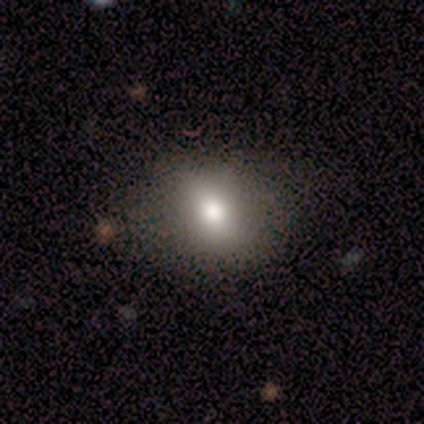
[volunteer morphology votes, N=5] smooth_or_featured: smooth (p=1.00)
how_rounded: round (p=0.60) [alt: in between p=0.40]
merging: none (p=0.80) [alt: major disturbance p=0.20]